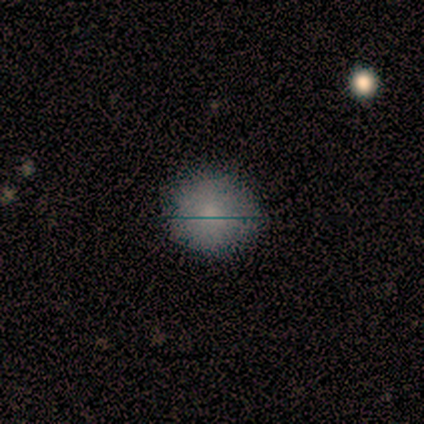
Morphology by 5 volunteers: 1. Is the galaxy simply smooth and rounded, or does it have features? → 60% star or artifact, 40% smooth, 0% featured or disk.